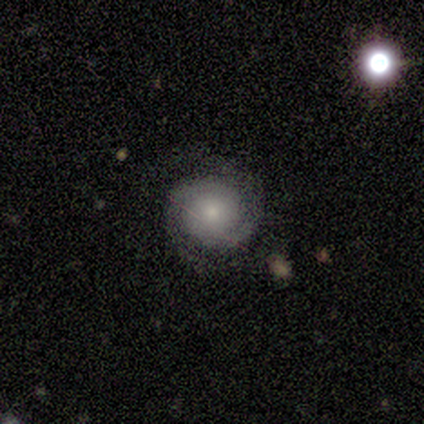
smooth-or-featured: featured or disk: 100% | smooth: 0% | star or artifact: 0%
  disk-edge-on: no: 100% | yes: 0%
    bar: no: 100% | strong: 0% | weak: 0%
    has-spiral-arms: yes: 100% | no: 0%
      spiral-winding: tight: 60% | medium: 40% | loose: 0%
      spiral-arm-count: 2: 60% | can't tell: 40% | 1: 0% | 3: 0% | 4: 0% | more than 4: 0%
    bulge-size: moderate: 60% | small: 40% | dominant: 0% | large: 0% | none: 0%
  merging: none: 80% | minor disturbance: 20% | major disturbance: 0% | merger: 0%